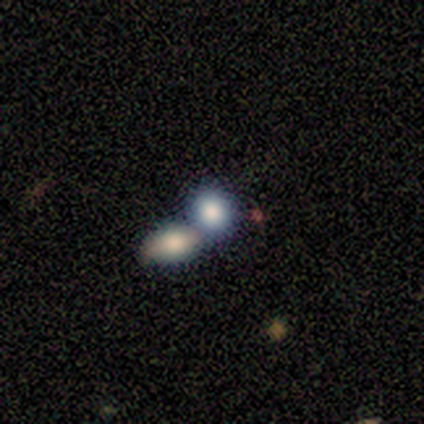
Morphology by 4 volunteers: Q: Smooth or featured?
A: smooth (100%)
Q: How rounded?
A: in between (75%); runner-up: round (25%)
Q: Merging?
A: none (50%); runner-up: major disturbance (25%)